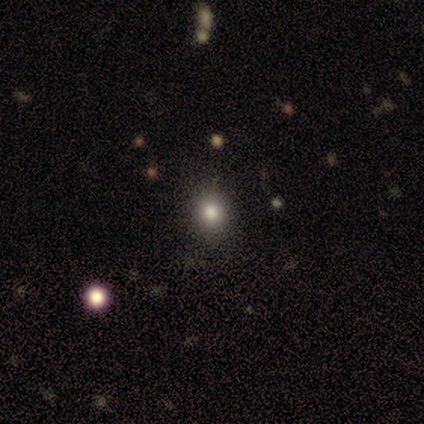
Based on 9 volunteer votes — Smooth or featured: smooth — 67% (star or artifact — 22%)
How rounded: in between — 67% (round — 33%)
Merging: none — 86% (minor disturbance — 14%)